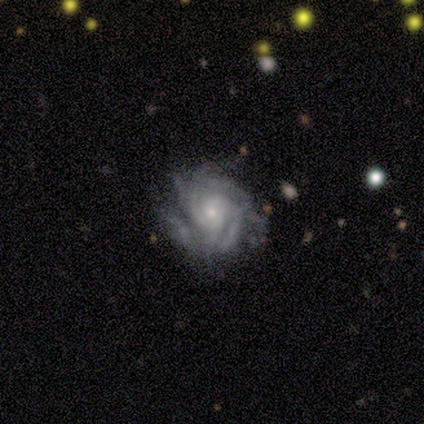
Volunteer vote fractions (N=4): featured or disk 100%, smooth 0%, star or artifact 0%. Down the decision tree: edge-on disk — no (100%); bar — no (75%); spiral arms — yes (100%); spiral arm count — can't tell (50%); spiral winding — tight (75%); bulge size — small (75%); merging — none (50%).